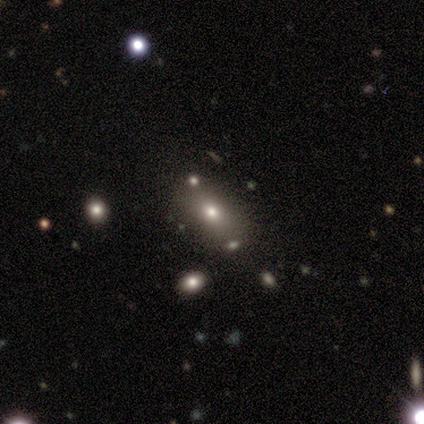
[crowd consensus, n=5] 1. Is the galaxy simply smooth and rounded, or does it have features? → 60% smooth, 40% star or artifact, 0% featured or disk.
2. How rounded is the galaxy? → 67% in between, 33% round, 0% cigar-shaped.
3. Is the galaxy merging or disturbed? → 67% minor disturbance, 33% none, 0% major disturbance, 0% merger.